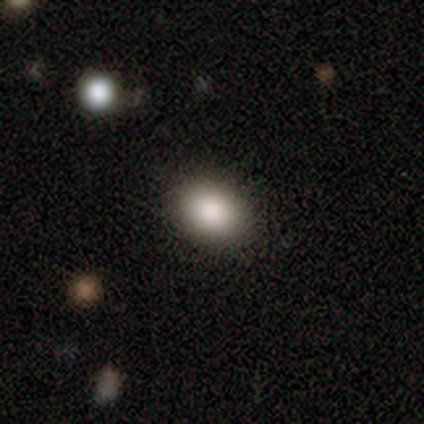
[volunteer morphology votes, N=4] Volunteers were most divided on "merging": none: 75%, minor disturbance: 25%, major disturbance: 0%, merger: 0%. More confident: smooth or featured — smooth (100%); how rounded — in between (100%).